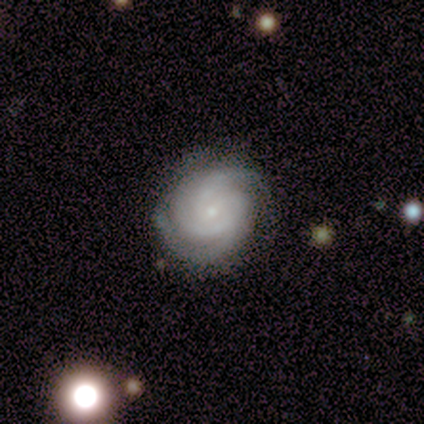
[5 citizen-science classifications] Volunteers were most divided on "merging" (2-way tie): none: 50%, minor disturbance: 50%, major disturbance: 0%, merger: 0%. More confident: edge-on disk — no (100%); spiral arms — yes (100%); smooth or featured — featured or disk (80%); bar — weak (75%); spiral winding — tight (75%); spiral arm count — 3 (75%); bulge size — small (75%).